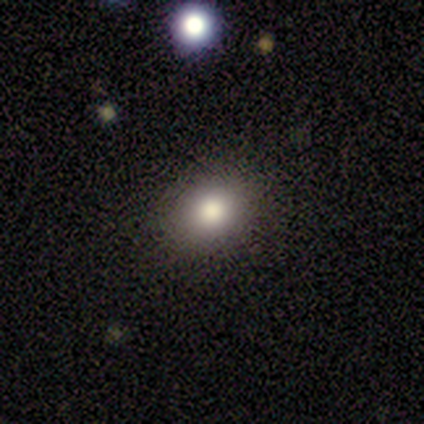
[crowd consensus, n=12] Overall: smooth (92%). How rounded: in between (55%; round 45%). Merging: none (91%).